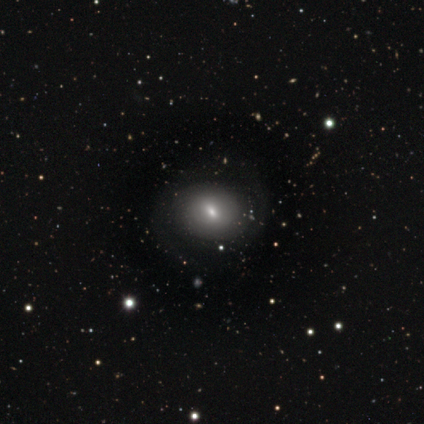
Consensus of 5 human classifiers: A smooth galaxy with no disk features (80%) that is round (100%). Merging: none (60%).